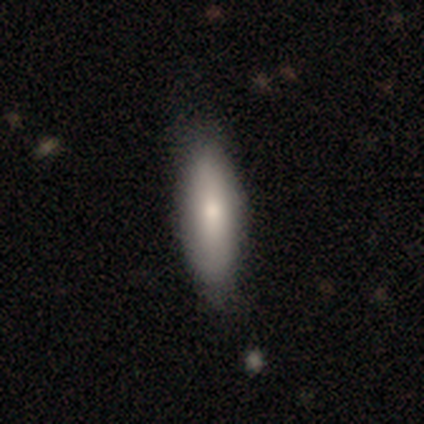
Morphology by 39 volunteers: A smooth galaxy with no disk features (79%) that is in between round and cigar-shaped (55%). Merging: none (76%).